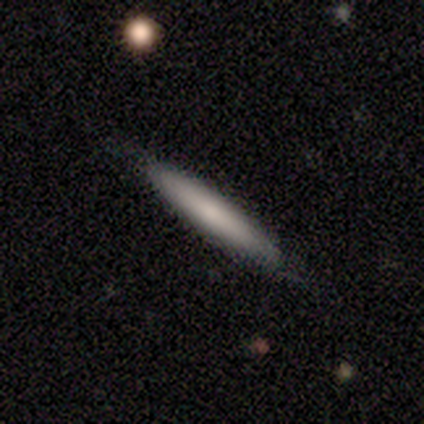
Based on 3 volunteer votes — smooth 100%, featured or disk 0%, star or artifact 0%. Down the decision tree: how rounded — cigar-shaped (100%); merging — none (100%).